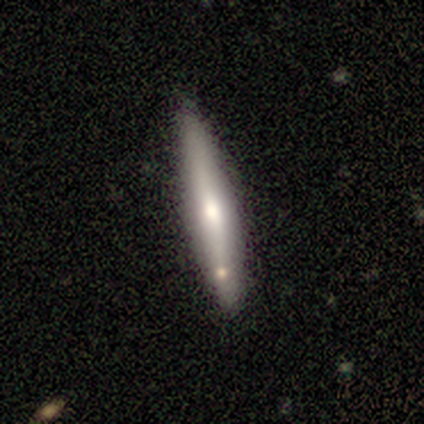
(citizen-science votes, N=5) Smooth or featured? 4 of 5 (80%) said smooth. How rounded? 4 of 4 (100%) said cigar-shaped. Merging? 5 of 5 (100%) said none.